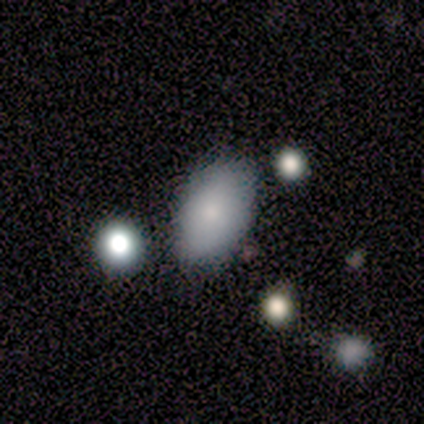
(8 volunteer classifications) smooth_or_featured: smooth (p=0.88) [alt: star or artifact p=0.12]
how_rounded: in between (p=1.00)
merging: none (p=0.86) [alt: minor disturbance p=0.14]